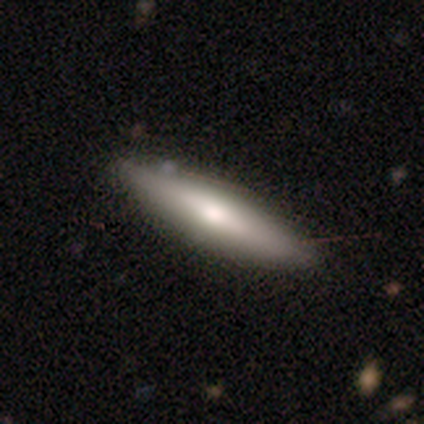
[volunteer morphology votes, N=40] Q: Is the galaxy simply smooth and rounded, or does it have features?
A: smooth — 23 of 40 (57%).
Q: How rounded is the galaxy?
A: cigar-shaped — 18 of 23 (78%).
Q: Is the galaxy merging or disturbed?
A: none — 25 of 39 (64%).